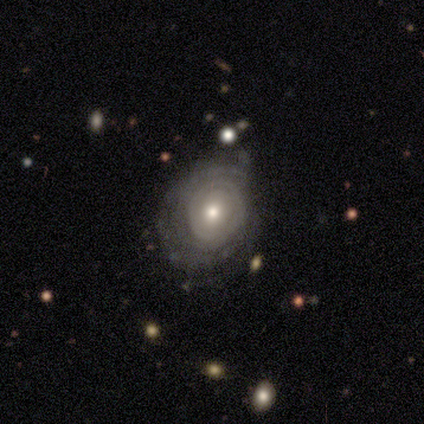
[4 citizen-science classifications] A featured or disk galaxy (100%) with no bar (100%), tight (67%) spiral arms (75%) and a moderate central bulge (100%). Merging: none (75%).